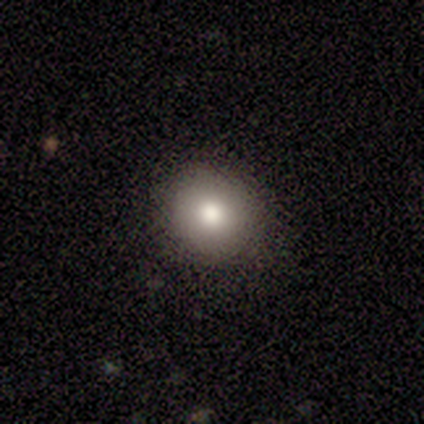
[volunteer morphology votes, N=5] Q: Smooth or featured?
A: smooth (80%); runner-up: star or artifact (20%)
Q: How rounded?
A: round (100%)
Q: Merging?
A: none (100%)